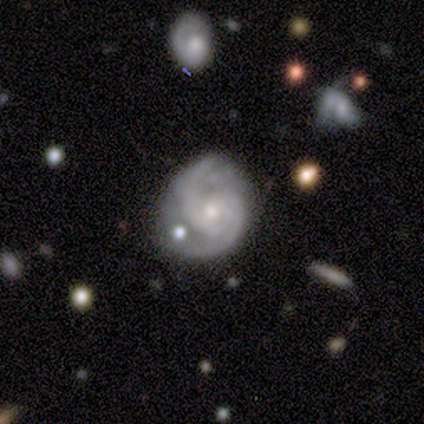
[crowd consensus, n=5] Smooth or featured: featured or disk — 100%
Edge-on disk: no — 100%
Bar: no — 60% (strong — 20%)
Spiral arms: yes — 100%
Spiral winding: tight — 40% (tied with medium — 40%)
Spiral arm count: 2 — 80% (can't tell — 20%)
Bulge size: moderate — 60% (small — 40%)
Merging: minor disturbance — 60% (none — 40%)